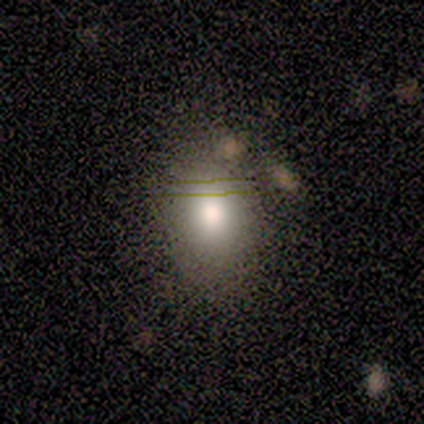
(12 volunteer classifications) This is clearly a smooth galaxy (92%). How rounded: likely round (64%). Merging: clearly none (92%).